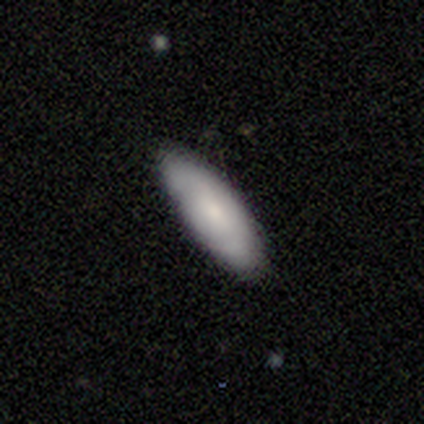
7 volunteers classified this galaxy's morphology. Smooth or featured? smooth (71%)
How rounded? in between (60%)
Merging? none (86%)